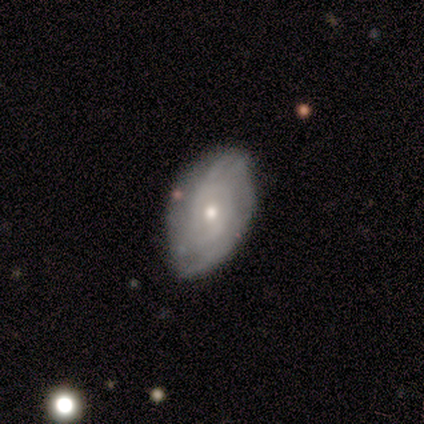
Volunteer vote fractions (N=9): Smooth or featured?
  - featured or disk: 67% *
  - smooth: 33%
  - star or artifact: 0%
Edge-on disk?
  - no: 100% *
  - yes: 0%
Bar?
  - no: 100% *
  - strong: 0%
  - weak: 0%
Spiral arms?
  - yes: 100% *
  - no: 0%
Spiral winding?
  - tight: 50% * (tied)
  - loose: 50% * (tied)
  - medium: 0%
Spiral arm count?
  - can't tell: 83% *
  - 3: 17%
  - 1: 0%
  - 2: 0%
  - 4: 0%
  - more than 4: 0%
Bulge size?
  - moderate: 50% * (tied)
  - small: 50% * (tied)
  - dominant: 0%
  - large: 0%
  - none: 0%
Merging?
  - none: 89% *
  - minor disturbance: 11%
  - major disturbance: 0%
  - merger: 0%